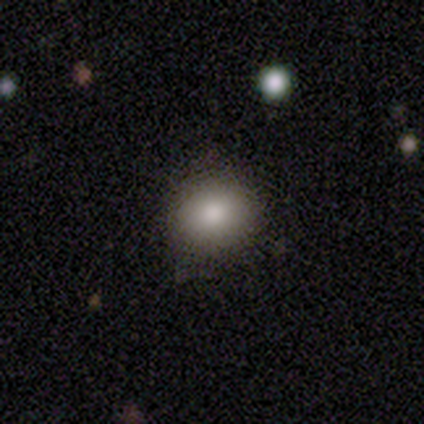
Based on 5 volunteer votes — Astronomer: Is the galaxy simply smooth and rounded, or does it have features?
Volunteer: smooth — 80%.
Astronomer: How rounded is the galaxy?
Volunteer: round — 50%, tied with in between at 50%.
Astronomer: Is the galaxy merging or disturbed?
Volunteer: none — 100%.